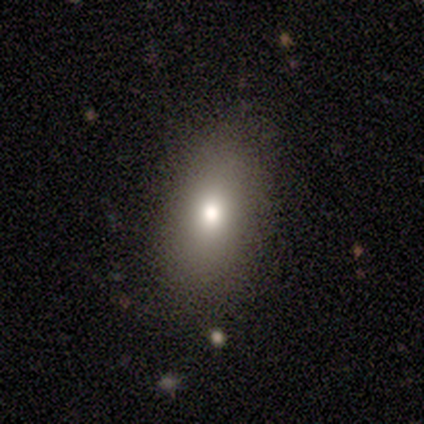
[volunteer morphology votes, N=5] Smooth or featured? smooth (80%)
How rounded? in between (100%)
Merging? none (100%)